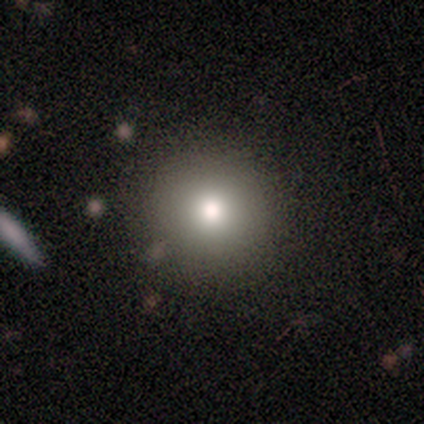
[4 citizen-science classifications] smooth 50%, featured or disk 25%, star or artifact 25%. Down the decision tree: how rounded — round (100%); merging — none (100%).